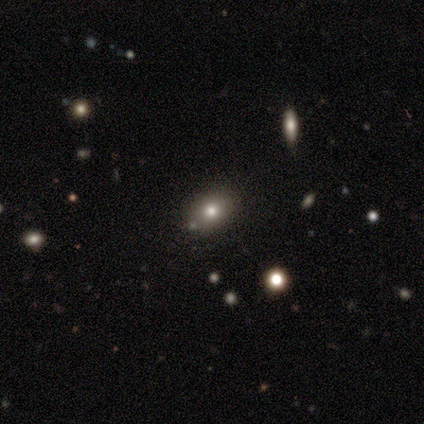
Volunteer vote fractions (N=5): This appears to be a smooth galaxy with no disk features (40%, tied with featured or disk) that is round (50%, tied with in between). Merging: none (75%).